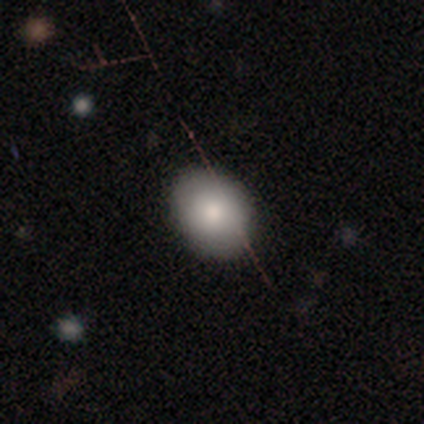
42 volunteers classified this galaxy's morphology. type=smooth (83%); roundness=in between (66%); merging=none (84%).